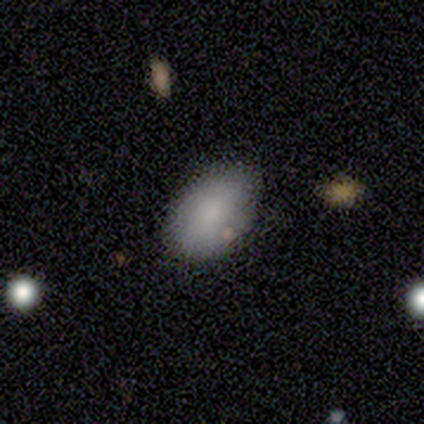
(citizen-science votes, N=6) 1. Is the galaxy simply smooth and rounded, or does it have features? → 100% smooth, 0% featured or disk, 0% star or artifact.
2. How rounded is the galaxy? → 83% in between, 17% round, 0% cigar-shaped.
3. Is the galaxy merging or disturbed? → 83% none, 17% major disturbance, 0% minor disturbance, 0% merger.